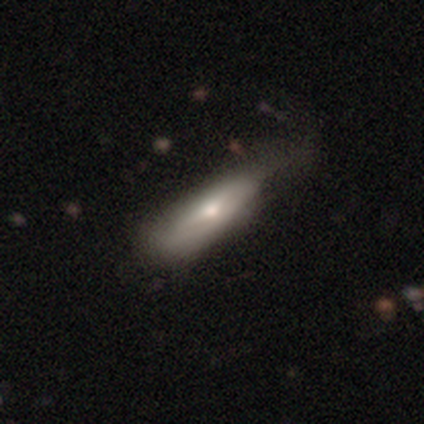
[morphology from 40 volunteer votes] smooth 70%, featured or disk 30%, star or artifact 0%. Down the decision tree: how rounded — cigar-shaped (54%); merging — none (25%).